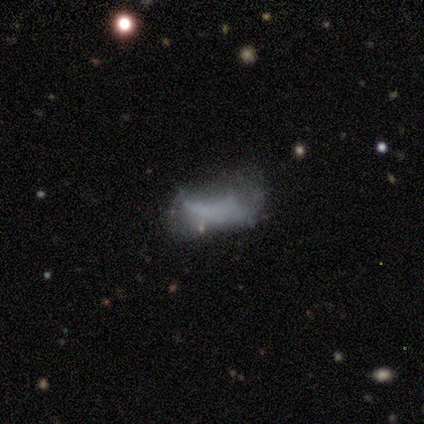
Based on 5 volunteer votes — Volunteers were most divided on "smooth or featured": star or artifact: 80%, smooth: 20%, featured or disk: 0%.